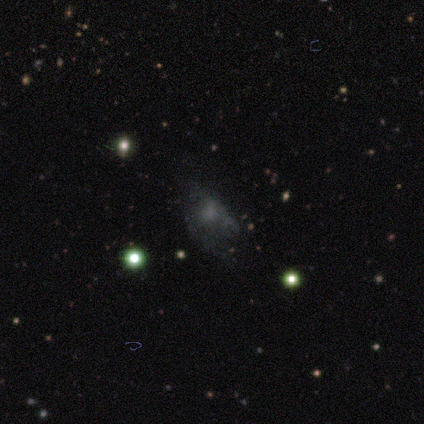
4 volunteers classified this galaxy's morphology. Smooth or featured? smooth (50%)
How rounded? round (50%, tied with in between)
Merging? major disturbance (67%)